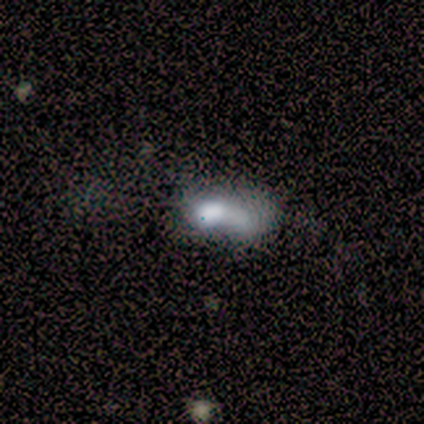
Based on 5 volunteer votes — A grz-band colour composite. It shows a smooth galaxy with no disk features (100%) that is in between round and cigar-shaped (80%). Merging: major disturbance (60%).